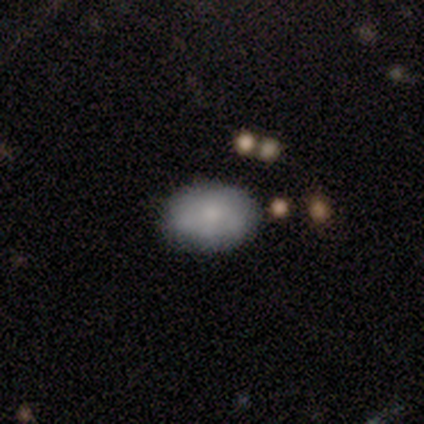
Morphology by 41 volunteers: smooth_or_featured: smooth (p=0.83) [alt: featured or disk p=0.12]
how_rounded: in between (p=0.79) [alt: round p=0.21]
merging: none (p=0.79) [alt: minor disturbance p=0.10]